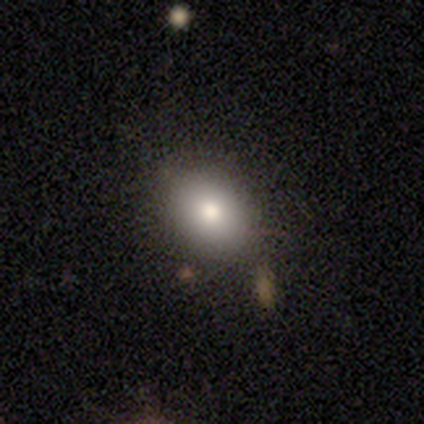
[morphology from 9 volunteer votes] smooth_or_featured: smooth (p=0.78) [alt: featured or disk p=0.11]
how_rounded: in between (p=0.71) [alt: round p=0.29]
merging: none (p=1.00)